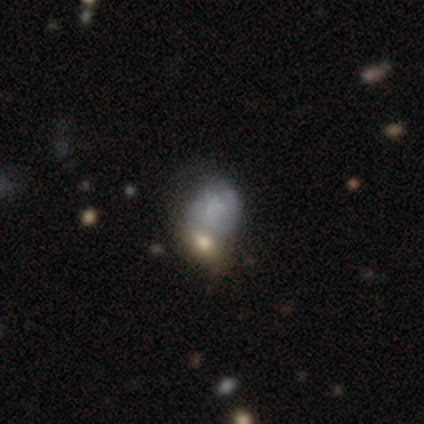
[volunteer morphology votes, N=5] This is likely a smooth galaxy (60%). How rounded: clearly in between (100%). Merging: likely merger (75%).